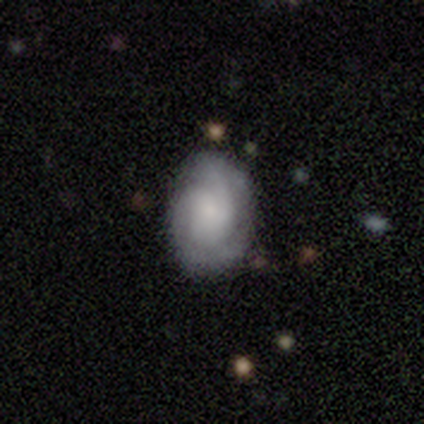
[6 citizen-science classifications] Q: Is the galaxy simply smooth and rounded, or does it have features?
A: featured or disk — 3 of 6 (50%).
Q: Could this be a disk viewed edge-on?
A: no — 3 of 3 (100%).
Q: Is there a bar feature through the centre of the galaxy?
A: no — 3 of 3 (100%).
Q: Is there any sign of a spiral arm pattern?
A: yes — 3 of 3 (100%).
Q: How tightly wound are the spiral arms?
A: tight — 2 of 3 (67%).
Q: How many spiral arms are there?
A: can't tell — 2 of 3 (67%).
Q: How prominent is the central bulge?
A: large — 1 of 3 (33%, tied with small and none).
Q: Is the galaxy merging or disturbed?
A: none — 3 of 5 (60%).